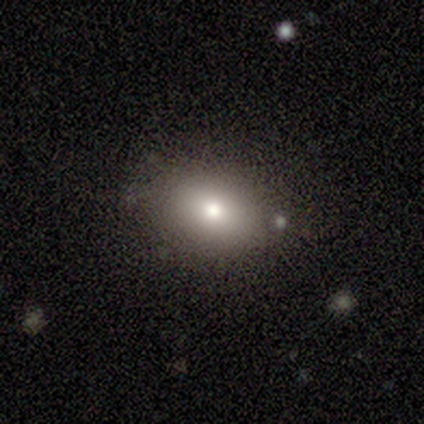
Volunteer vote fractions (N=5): This is clearly a smooth galaxy (80%). How rounded: clearly in between (100%). Merging: clearly none (100%).